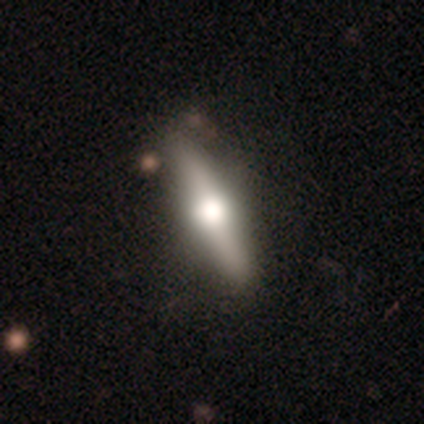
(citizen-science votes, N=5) Morphology: type=featured or disk (60%); edge-on=yes (67%); edge-on bulge=rounded (100%); merging=none (80%).